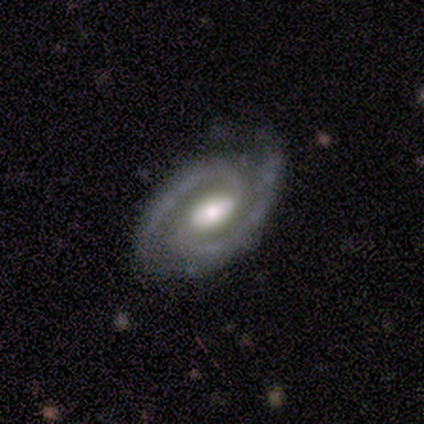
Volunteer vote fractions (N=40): Volunteers were most divided on "spiral winding": medium: 51%, tight: 41%, loose: 8%. More confident: smooth or featured — featured or disk (100%); edge-on disk — no (100%); spiral arm count — 2 (100%); spiral arms — yes (98%); merging — none (70%); bulge size — moderate (60%); bar — weak (55%).